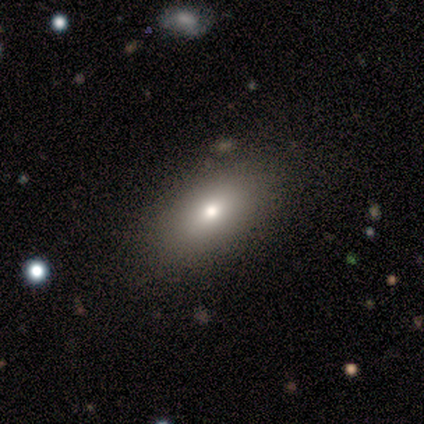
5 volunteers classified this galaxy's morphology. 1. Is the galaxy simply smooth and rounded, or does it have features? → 60% smooth, 40% featured or disk, 0% star or artifact.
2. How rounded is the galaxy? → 67% in between, 33% round, 0% cigar-shaped.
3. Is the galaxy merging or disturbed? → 80% none, 20% major disturbance, 0% minor disturbance, 0% merger.